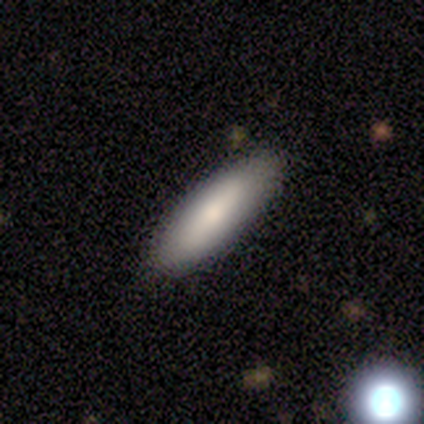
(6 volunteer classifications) Morphology: type=smooth (83%); roundness=cigar-shaped (100%); merging=none (50%, tied with minor disturbance).